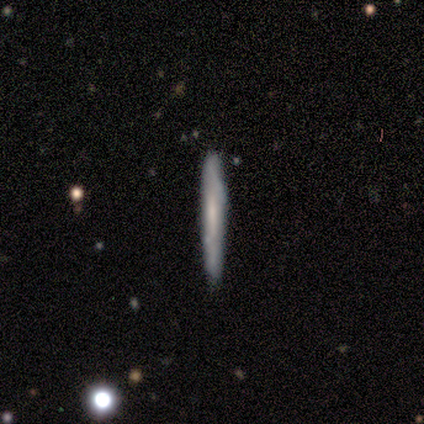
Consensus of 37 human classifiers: smooth 54%, featured or disk 41%, star or artifact 5%. Down the decision tree: how rounded — cigar-shaped (100%); merging — none (71%).